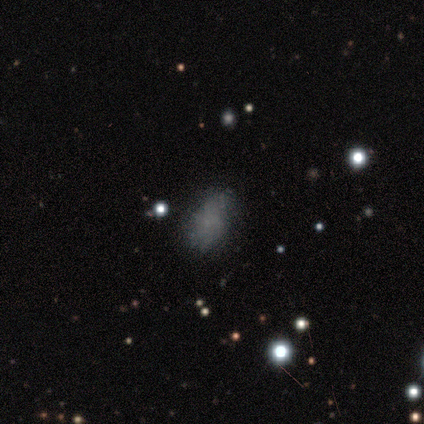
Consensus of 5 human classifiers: smooth 60%, featured or disk 20%, star or artifact 20%. Down the decision tree: how rounded — in between (100%); merging — none (50%).